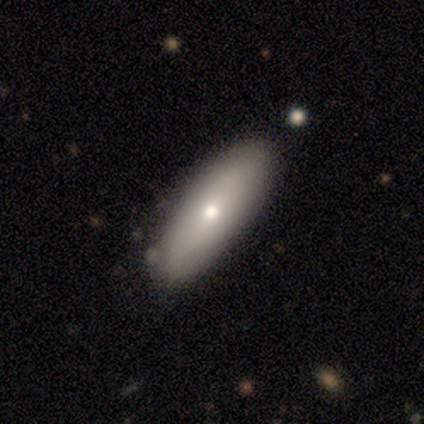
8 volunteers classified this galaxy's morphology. A smooth galaxy with no disk features (75%) that is in between round and cigar-shaped (83%). Merging: none (100%).